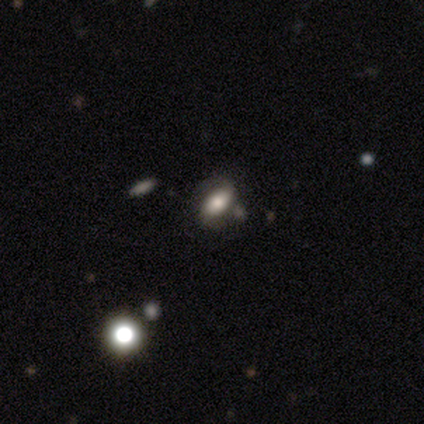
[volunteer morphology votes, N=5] A featured or disk galaxy (80%) with a weak bar (50%), 2 (100%) medium (50%) spiral arms (100%) and a large central bulge (75%). Merging: none (80%).